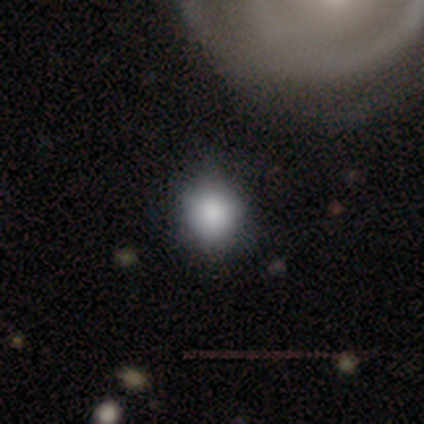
Overall: smooth (50%, tied with star or artifact). How rounded: round (100%). Merging: none (100%).